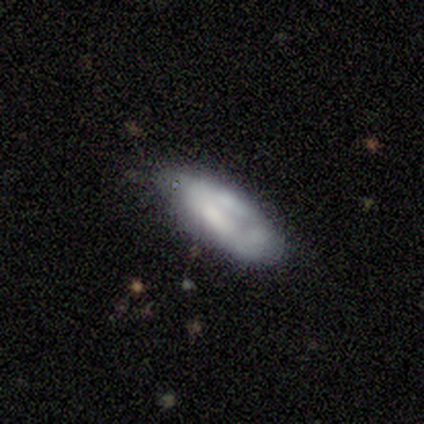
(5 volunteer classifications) A smooth galaxy with no disk features (80%) that is in between round and cigar-shaped (50%, tied with cigar-shaped). Merging: minor disturbance (80%).